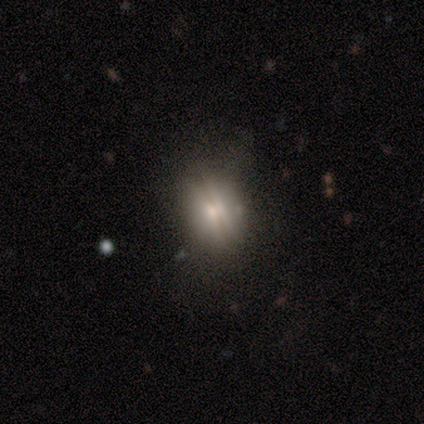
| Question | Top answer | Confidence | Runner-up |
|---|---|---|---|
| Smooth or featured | smooth | 40% | tied: star or artifact (40%) |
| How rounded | in between | 100% | — |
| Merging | none | 100% | — |